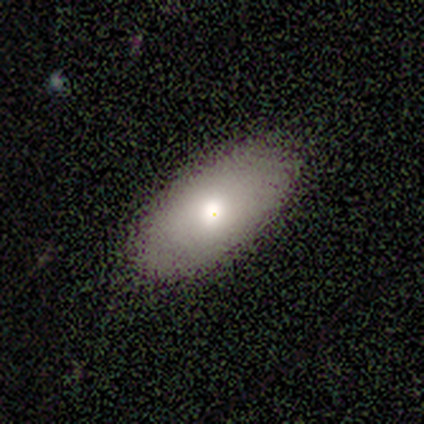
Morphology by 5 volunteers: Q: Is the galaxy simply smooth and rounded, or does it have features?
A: smooth — 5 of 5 (100%).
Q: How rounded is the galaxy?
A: in between — 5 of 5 (100%).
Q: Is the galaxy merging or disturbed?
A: none — 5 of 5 (100%).